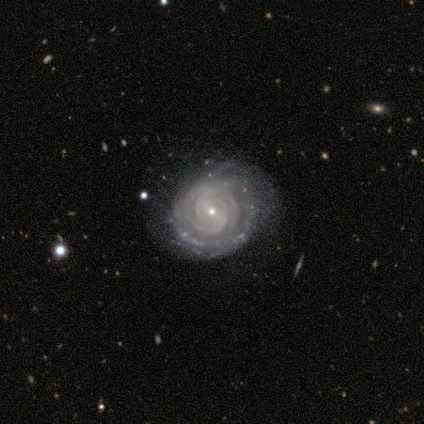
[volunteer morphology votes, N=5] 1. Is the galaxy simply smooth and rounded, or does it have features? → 100% featured or disk, 0% smooth, 0% star or artifact.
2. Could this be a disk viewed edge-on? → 100% no, 0% yes.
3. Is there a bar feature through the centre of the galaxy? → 60% no, 40% weak, 0% strong.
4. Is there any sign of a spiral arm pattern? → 100% yes, 0% no.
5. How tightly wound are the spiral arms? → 100% tight, 0% medium, 0% loose.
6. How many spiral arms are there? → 60% can't tell, 20% 2, 20% 3, 0% 1, 0% 4, 0% more than 4.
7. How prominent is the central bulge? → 100% small, 0% dominant, 0% large, 0% moderate, 0% none.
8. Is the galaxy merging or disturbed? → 80% none, 20% major disturbance, 0% minor disturbance, 0% merger.